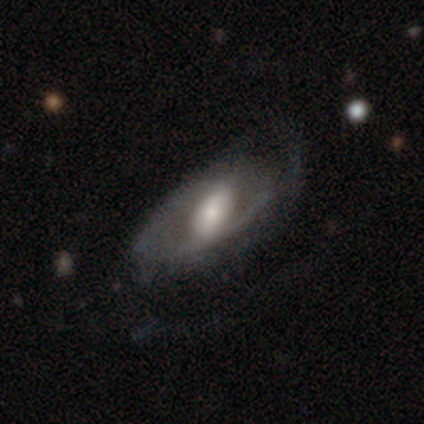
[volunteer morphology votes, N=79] smooth-or-featured: featured or disk: 76% | smooth: 20% | star or artifact: 4%
  disk-edge-on: no: 100% | yes: 0%
    bar: strong: 45% | weak: 40% | no: 15%
    has-spiral-arms: yes: 72% | no: 28%
      spiral-winding: medium: 51% | loose: 33% | tight: 16%
      spiral-arm-count: 2: 58% | can't tell: 28% | 1: 9% | 3: 2% | more than 4: 2% | 4: 0%
    bulge-size: moderate: 35% | large: 33% | small: 28% | dominant: 3% | none: 0%
  merging: none: 25% | minor disturbance: 16% | major disturbance: 9% | merger: 0%